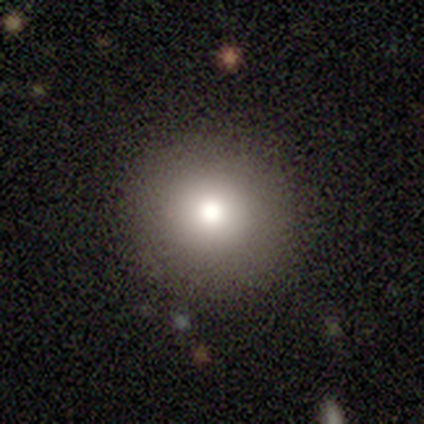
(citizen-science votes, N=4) Q: Smooth or featured?
A: smooth (50%); runner-up: featured or disk (25%)
Q: How rounded?
A: round (50%); tied with: in between (50%)
Q: Merging?
A: none (67%); runner-up: minor disturbance (33%)